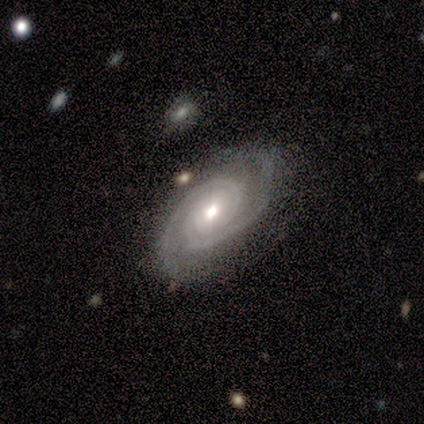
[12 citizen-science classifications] A featured or disk galaxy (100%) with no bar (80%), 2 (100%) tight (90%) spiral arms (100%) and a moderate central bulge (50%, tied with small). Merging: none (92%).